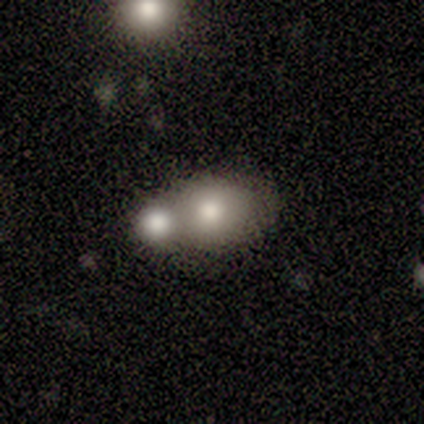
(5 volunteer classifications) Overall: smooth (80%). How rounded: round (50%, tied with in between). Merging: merger (80%).